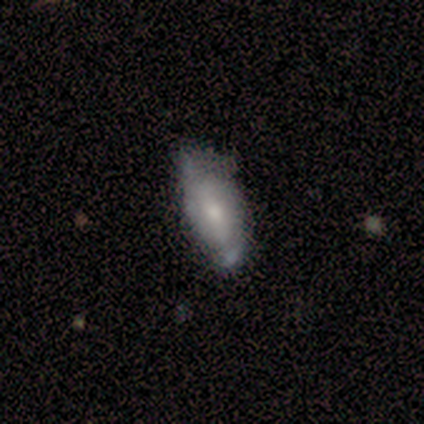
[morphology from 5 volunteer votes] A featured or disk galaxy (60%) with a weak bar (50%, tied with no), 2 (100%) tight (100%) spiral arms (50%, tied with no) and a moderate central bulge (50%, tied with small).

Vote fractions:
- Smooth or featured? featured or disk: 60% / smooth: 40% / star or artifact: 0%
- Edge-on disk? no: 67% / yes: 33%
- Bar? weak: 50% (tied) / no: 50% (tied) / strong: 0%
- Spiral arms? yes: 50% (tied) / no: 50% (tied)
- Spiral winding? tight: 100% / medium: 0% / loose: 0%
- Spiral arm count? 2: 100% / 1: 0% / 3: 0% / 4: 0% / more than 4: 0% / can't tell: 0%
- Bulge size? moderate: 50% (tied) / small: 50% (tied) / dominant: 0% / large: 0% / none: 0%
- Merging? minor disturbance: 60% / none: 20% / major disturbance: 20% / merger: 0%